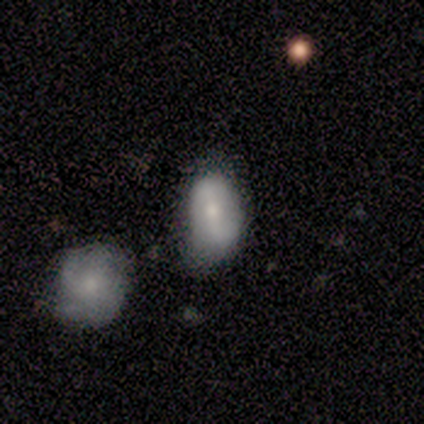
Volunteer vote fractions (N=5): A smooth galaxy with no disk features (60%) that is in between round and cigar-shaped (100%).

Vote fractions:
- Smooth or featured? smooth: 60% / featured or disk: 40% / star or artifact: 0%
- How rounded? in between: 100% / round: 0% / cigar-shaped: 0%
- Merging? minor disturbance: 40% / none: 20% / major disturbance: 20% / merger: 20%